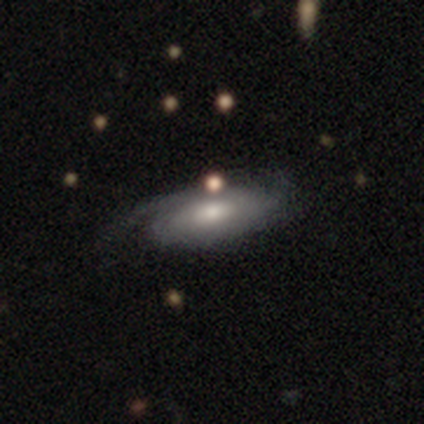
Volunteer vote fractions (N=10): Overall: featured or disk (60%; smooth 30%). Edge-on disk: no (83%). Bar: no (80%). Spiral arms: yes (80%). Spiral arm count: can't tell (50%; 2 25%). Spiral winding: tight (75%). Bulge size: small (60%; moderate 40%). Merging: none (44%, tied with minor disturbance).